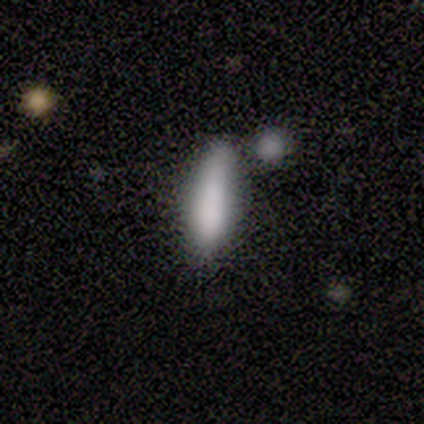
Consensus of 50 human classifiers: smooth-or-featured: smooth: 78% | featured or disk: 14% | star or artifact: 8%
  how-rounded: cigar-shaped: 59% | in between: 41% | round: 0%
  merging: none: 46% | minor disturbance: 33% | merger: 22% | major disturbance: 0%